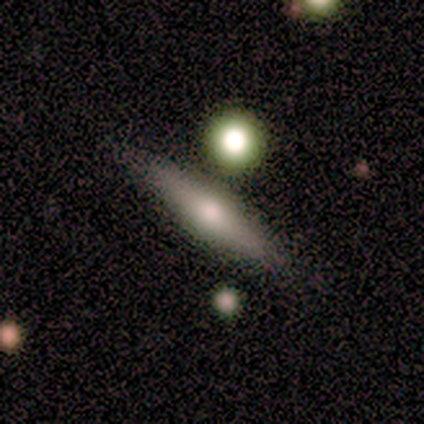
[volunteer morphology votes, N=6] A smooth galaxy with no disk features (50%, tied with featured or disk) that is in between round and cigar-shaped (67%).

Vote fractions:
- Smooth or featured? smooth: 50% (tied) / featured or disk: 50% (tied) / star or artifact: 0%
- How rounded? in between: 67% / cigar-shaped: 33% / round: 0%
- Merging? none: 100% / minor disturbance: 0% / major disturbance: 0% / merger: 0%